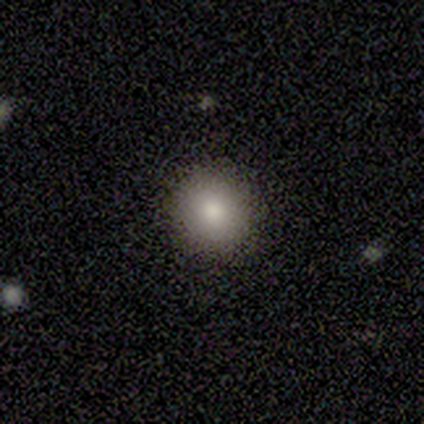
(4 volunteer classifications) smooth-or-featured: smooth: 100% | featured or disk: 0% | star or artifact: 0%
  how-rounded: round: 75% | in between: 25% | cigar-shaped: 0%
  merging: none: 75% | minor disturbance: 25% | major disturbance: 0% | merger: 0%